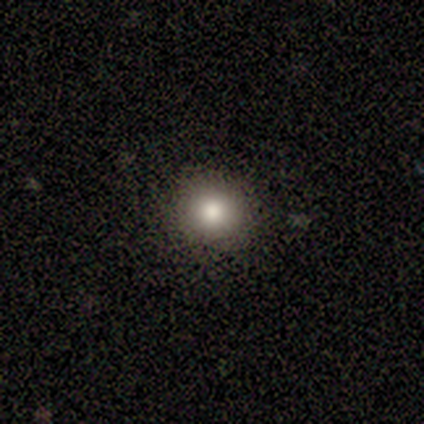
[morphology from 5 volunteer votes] type=smooth (100%); roundness=round (100%); merging=none (100%).